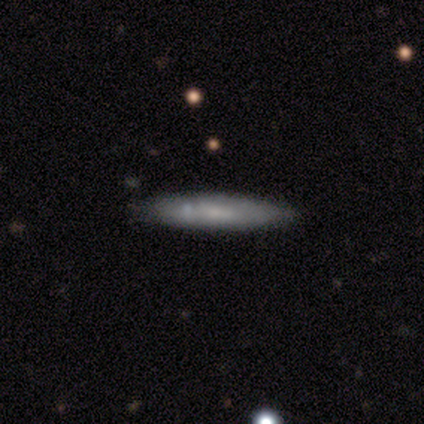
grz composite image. It shows a smooth galaxy with no disk features (72%) that is cigar-shaped (93%). Merging: none (76%).